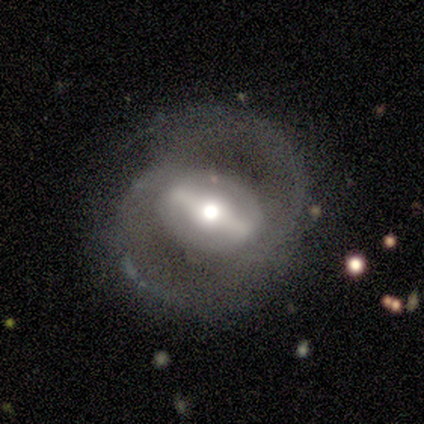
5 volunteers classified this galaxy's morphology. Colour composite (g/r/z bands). It shows a featured or disk galaxy (80%) with a strong bar (100%), 2 (100%) medium (67%) spiral arms (100%) and a moderate central bulge (100%). Merging: none (50%).